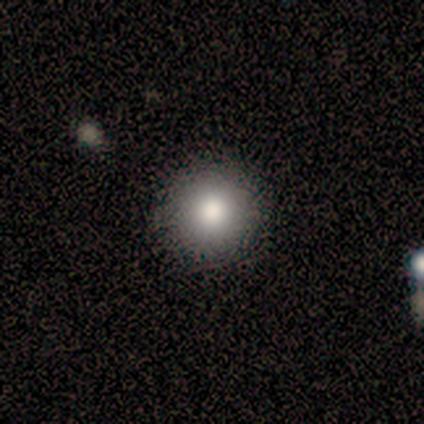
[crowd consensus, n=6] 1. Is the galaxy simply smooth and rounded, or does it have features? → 100% smooth, 0% featured or disk, 0% star or artifact.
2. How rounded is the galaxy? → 100% round, 0% in between, 0% cigar-shaped.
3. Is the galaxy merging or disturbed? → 67% none, 33% minor disturbance, 0% major disturbance, 0% merger.